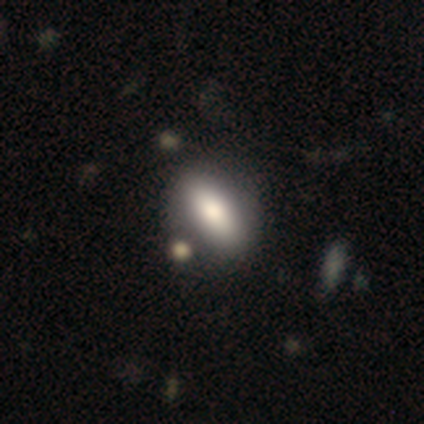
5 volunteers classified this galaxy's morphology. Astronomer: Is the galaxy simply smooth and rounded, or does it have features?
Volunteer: smooth — 80%.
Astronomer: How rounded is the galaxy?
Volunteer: in between — 75%.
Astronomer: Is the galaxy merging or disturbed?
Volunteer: none — 60% (runner-up: minor disturbance, 40%).